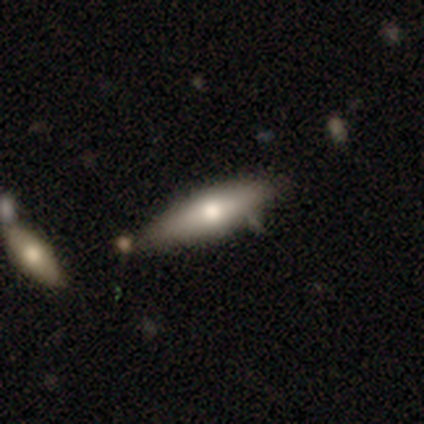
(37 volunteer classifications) Smooth or featured? smooth (59%)
How rounded? cigar-shaped (68%)
Merging? none (68%)